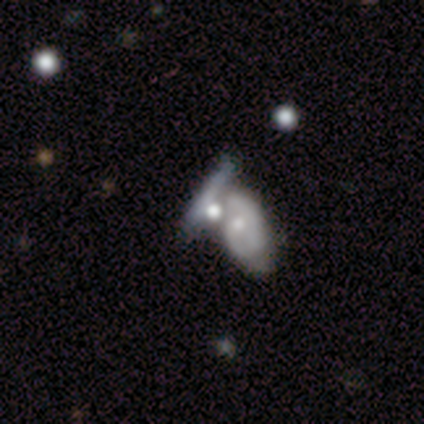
Morphology: type=featured or disk (60%); edge-on=no (100%); bar=no (100%); spiral arms=no (67%); bulge=large (33%, tied with moderate and small); merging=merger (60%).